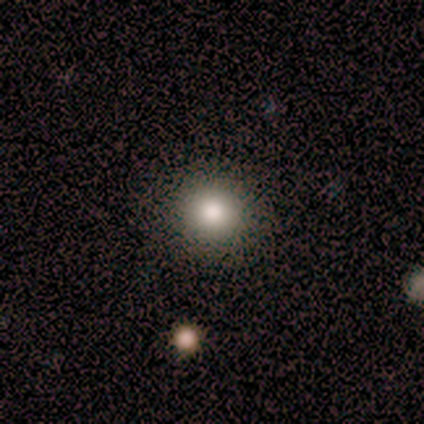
Volunteers were most divided on "smooth or featured": smooth: 80%, featured or disk: 20%, star or artifact: 0%. More confident: how rounded — round (100%); merging — none (80%).